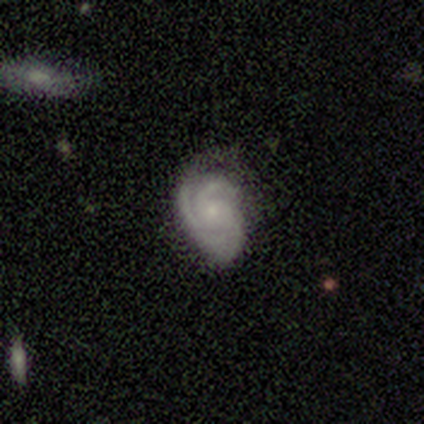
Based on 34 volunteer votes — Smooth or featured: featured or disk — 91% (smooth — 6%)
Edge-on disk: no — 94% (yes — 6%)
Bar: no — 79% (weak — 21%)
Spiral arms: yes — 93% (no — 7%)
Spiral winding: tight — 67% (medium — 30%)
Spiral arm count: 3 — 81% (2 — 7%)
Bulge size: small — 76% (moderate — 14%)
Merging: none — 61% (minor disturbance — 30%)